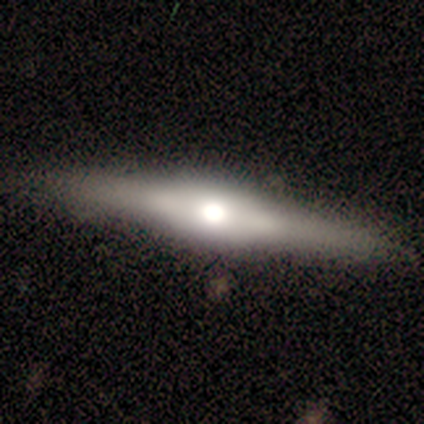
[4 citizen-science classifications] Smooth or featured? 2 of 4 (50%, tied with featured or disk) said smooth. How rounded? 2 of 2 (100%) said cigar-shaped. Merging? 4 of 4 (100%) said none.